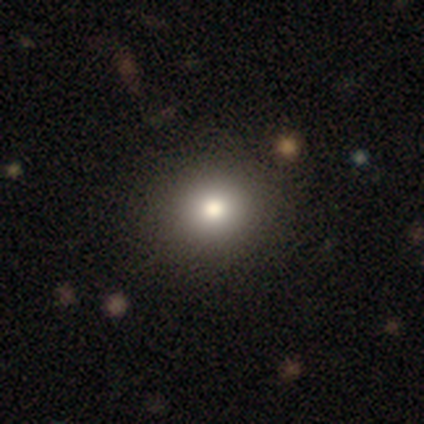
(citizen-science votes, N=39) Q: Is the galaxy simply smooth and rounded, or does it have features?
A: smooth — 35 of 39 (90%).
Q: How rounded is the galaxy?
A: round — 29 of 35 (83%).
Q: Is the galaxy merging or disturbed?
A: none — 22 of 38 (58%).